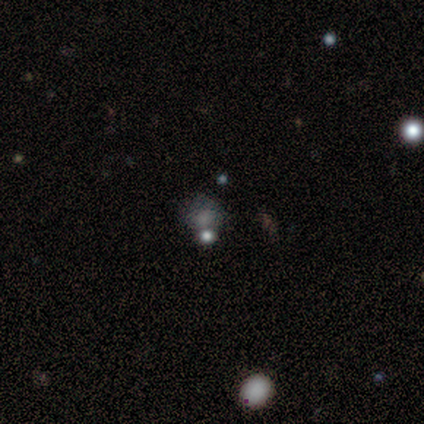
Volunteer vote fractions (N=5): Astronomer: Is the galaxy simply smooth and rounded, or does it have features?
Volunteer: smooth — 100%.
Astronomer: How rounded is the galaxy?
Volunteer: round — 100%.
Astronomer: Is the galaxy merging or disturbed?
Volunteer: none — 60%.